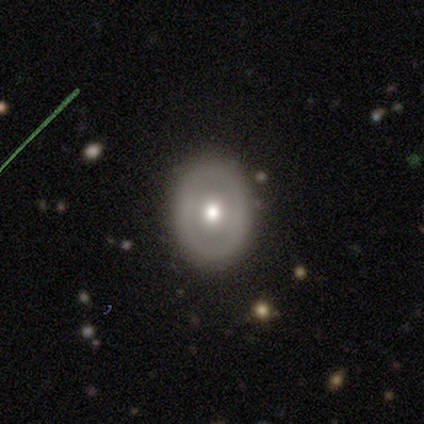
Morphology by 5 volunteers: Smooth or featured? 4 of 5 (80%) said smooth. How rounded? 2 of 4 (50%, tied with in between) said round. Merging? 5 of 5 (100%) said none.